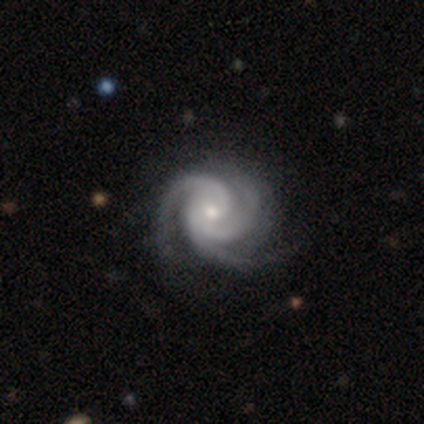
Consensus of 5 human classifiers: smooth-or-featured: featured or disk: 100% | smooth: 0% | star or artifact: 0%
  disk-edge-on: no: 100% | yes: 0%
    bar: no: 60% | weak: 40% | strong: 0%
    has-spiral-arms: yes: 100% | no: 0%
      spiral-winding: medium: 60% | tight: 40% | loose: 0%
      spiral-arm-count: 3: 100% | 1: 0% | 2: 0% | 4: 0% | more than 4: 0% | can't tell: 0%
    bulge-size: moderate: 100% | dominant: 0% | large: 0% | small: 0% | none: 0%
  merging: none: 80% | minor disturbance: 20% | major disturbance: 0% | merger: 0%